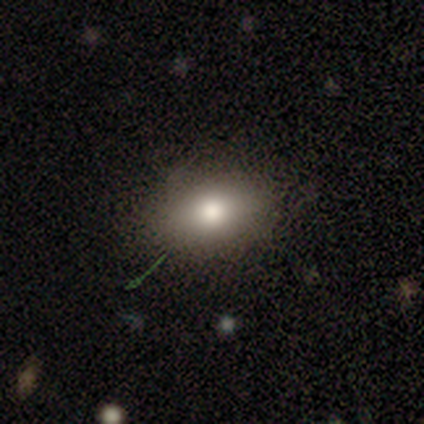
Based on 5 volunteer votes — smooth_or_featured: smooth (p=0.60) [alt: star or artifact p=0.40]
how_rounded: round (p=0.67) [alt: in between p=0.33]
merging: none (p=1.00)